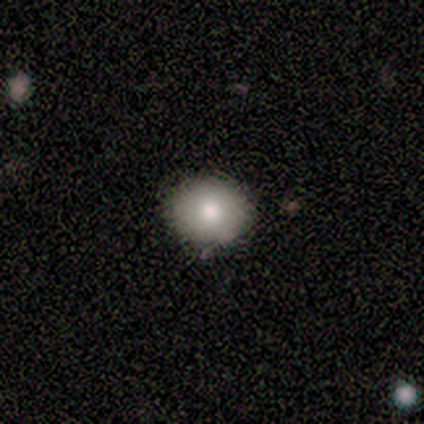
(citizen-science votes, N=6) This appears to be a smooth galaxy with no disk features (83%) that is round (60%). Merging: none (100%).